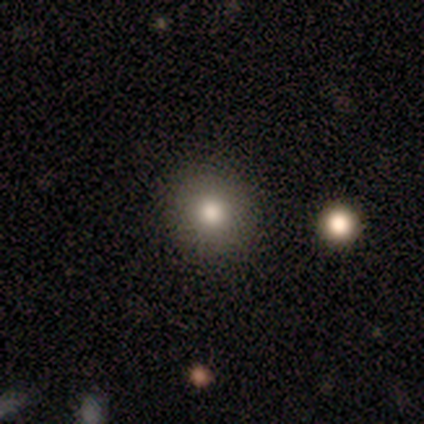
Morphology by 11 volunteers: A smooth galaxy with no disk features (100%) that is round (100%). Merging: none (100%).